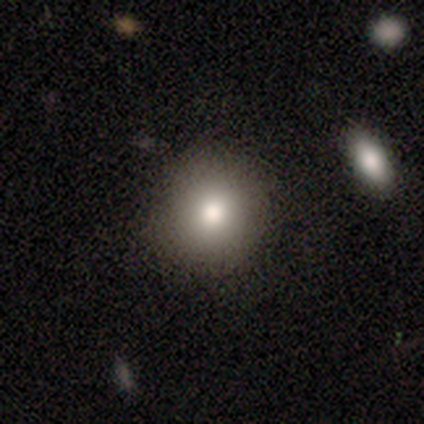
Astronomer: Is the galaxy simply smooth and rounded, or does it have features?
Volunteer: smooth — 84%.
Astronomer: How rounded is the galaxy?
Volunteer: round — 88%.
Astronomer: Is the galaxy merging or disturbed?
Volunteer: none — 91%.